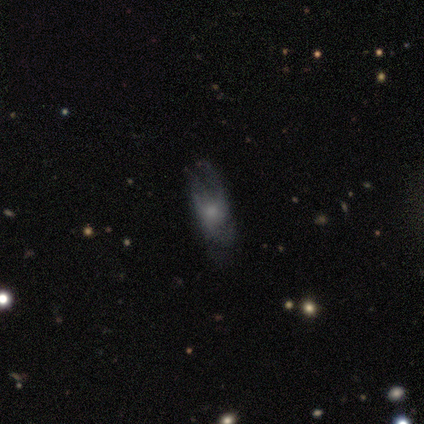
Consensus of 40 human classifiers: featured or disk 50%, smooth 45%, star or artifact 5%. Down the decision tree: edge-on disk — no (85%); bar — no (88%); spiral arms — yes (53%); spiral arm count — can't tell (56%); spiral winding — medium (44%); bulge size — moderate (41%); merging — none (50%).